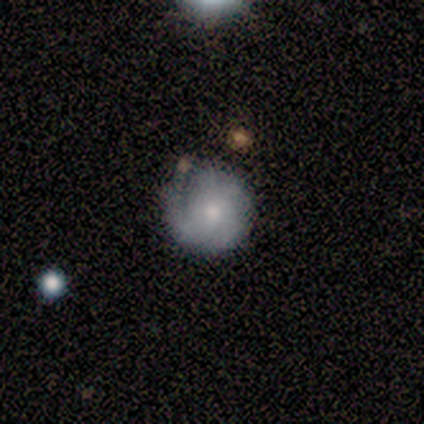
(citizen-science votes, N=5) Volunteers were most divided on "spiral arm count" (3-way tie): 1: 33%, 3: 33%, 4: 33%, 2: 0%, more than 4: 0%, can't tell: 0%. More confident: smooth or featured — featured or disk (100%); edge-on disk — no (100%); bar — no (80%); bulge size — small (80%); spiral winding — tight (67%); spiral arms — yes (60%); merging — minor disturbance (60%).